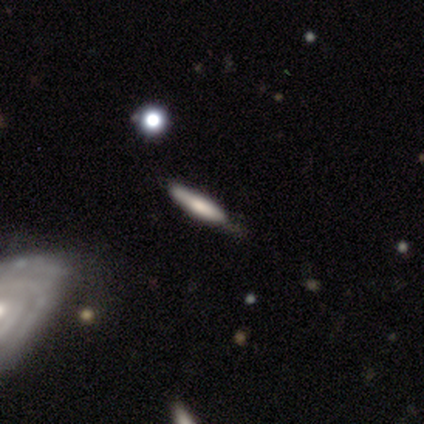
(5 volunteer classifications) Q: Smooth or featured?
A: featured or disk (60%); runner-up: smooth (40%)
Q: Edge-on disk?
A: yes (100%)
Q: Edge-on bulge?
A: rounded (100%)
Q: Merging?
A: none (80%); runner-up: minor disturbance (20%)